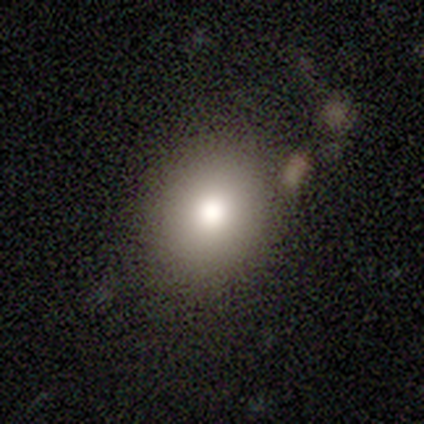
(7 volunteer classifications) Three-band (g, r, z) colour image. It shows a smooth galaxy with no disk features (71%) that is round (60%). Merging: none (100%).